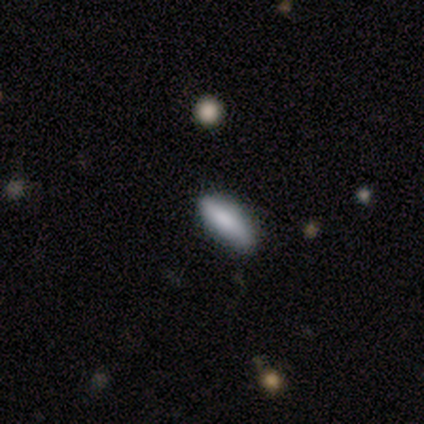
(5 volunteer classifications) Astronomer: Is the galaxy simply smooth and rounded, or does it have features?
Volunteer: smooth — 60%.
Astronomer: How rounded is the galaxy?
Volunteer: in between — 100%.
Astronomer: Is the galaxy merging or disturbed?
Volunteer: none — 75%.